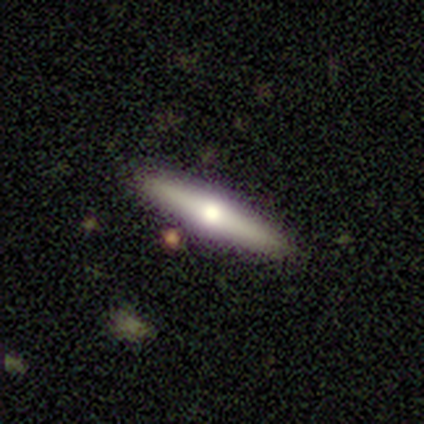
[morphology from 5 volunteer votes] type=smooth (60%); roundness=cigar-shaped (67%); merging=none (100%).